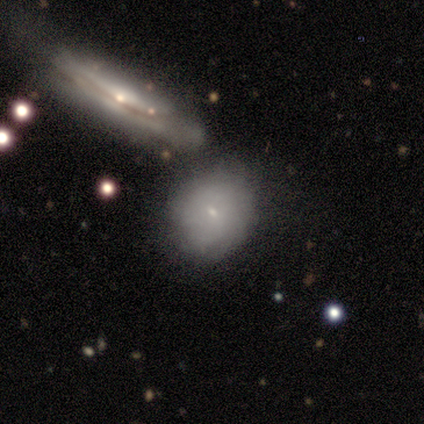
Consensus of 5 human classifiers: smooth-or-featured: smooth: 40% (tied) | featured or disk: 40% (tied) | star or artifact: 20%
  how-rounded: in between: 100% | round: 0% | cigar-shaped: 0%
  merging: merger: 75% | none: 25% | minor disturbance: 0% | major disturbance: 0%